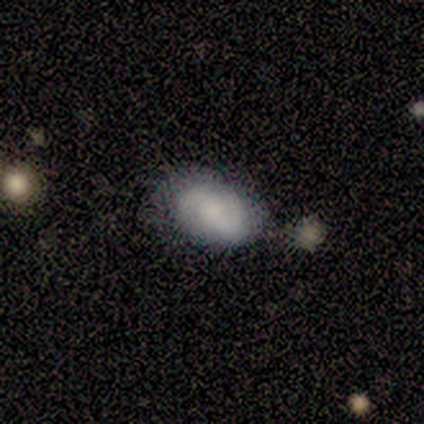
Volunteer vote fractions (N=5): This appears to be a smooth galaxy with no disk features (80%) that is in between round and cigar-shaped (100%). Merging: none (60%).